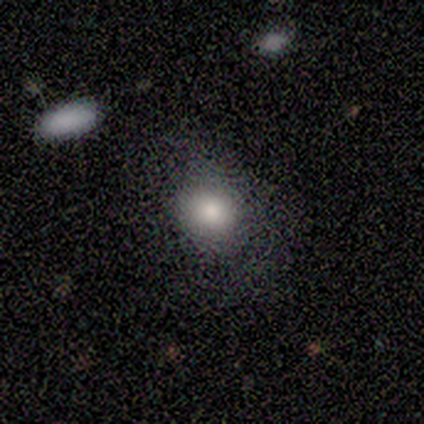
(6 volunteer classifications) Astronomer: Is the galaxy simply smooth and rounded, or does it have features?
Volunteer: smooth — 100%.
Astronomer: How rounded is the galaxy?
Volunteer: round — 50%, tied with in between at 50%.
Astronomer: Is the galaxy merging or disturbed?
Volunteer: none — 67%.